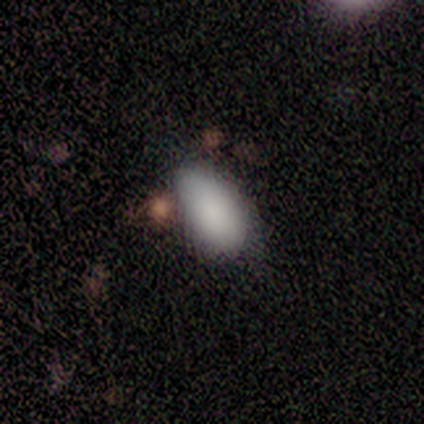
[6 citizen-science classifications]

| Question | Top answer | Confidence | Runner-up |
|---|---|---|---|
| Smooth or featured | smooth | 100% | — |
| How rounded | in between | 100% | — |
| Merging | none | 50% | major disturbance (33%) |